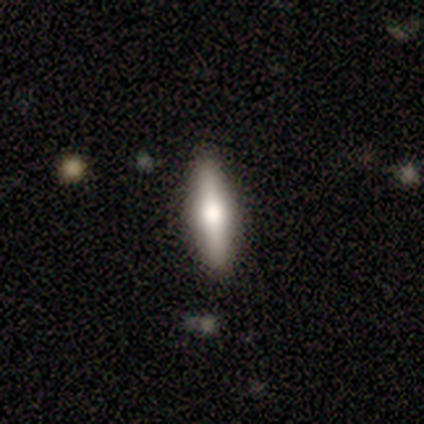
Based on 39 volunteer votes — This appears to be a smooth galaxy with no disk features (49%) that is cigar-shaped (68%). Merging: none (78%).